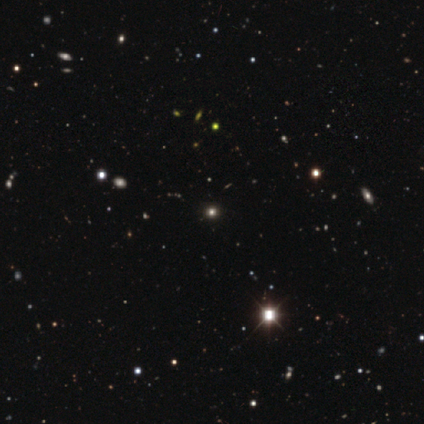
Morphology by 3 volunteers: Q: Smooth or featured?
A: star or artifact (100%)